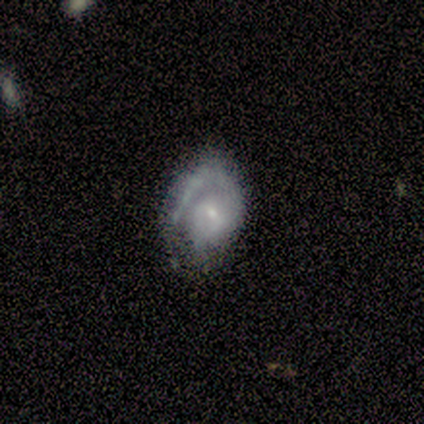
Volunteers were most divided on "bar": no: 56%, weak: 44%, strong: 0%. More confident: edge-on disk — no (100%); smooth or featured — featured or disk (90%); spiral arm count — 1 (86%); spiral arms — yes (78%); bulge size — small (78%); spiral winding — tight (71%); merging — none (60%).